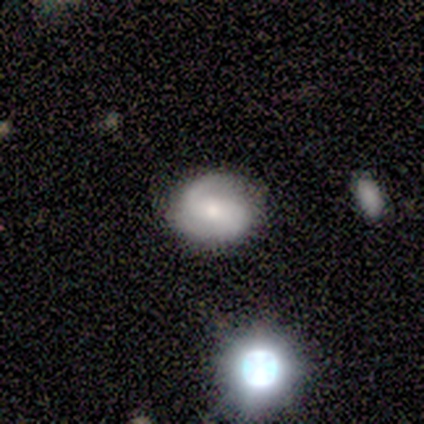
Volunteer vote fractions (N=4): Overall: featured or disk (75%). Edge-on disk: no (100%). Bar: weak (100%). Spiral arms: yes (67%; no 33%). Spiral arm count: 2 (100%). Spiral winding: tight (50%, tied with medium). Bulge size: small (67%; moderate 33%). Merging: none (75%).